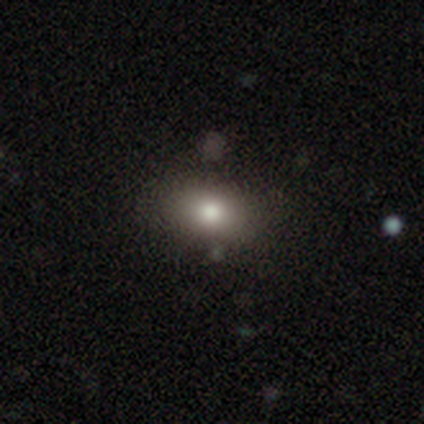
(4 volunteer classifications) Consensus on every question: smooth or featured — smooth (100%); how rounded — in between (100%); merging — none (100%).